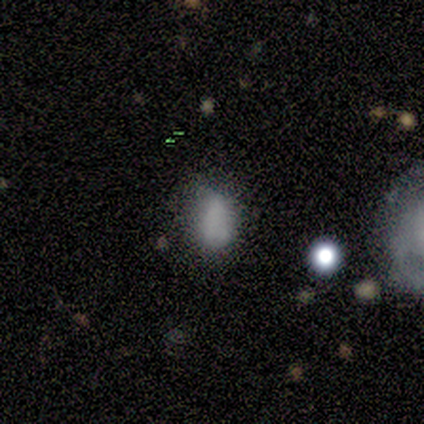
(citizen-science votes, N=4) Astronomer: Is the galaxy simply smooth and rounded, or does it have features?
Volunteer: smooth — 50%.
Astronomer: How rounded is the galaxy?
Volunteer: in between — 100%.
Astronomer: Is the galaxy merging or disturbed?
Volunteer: minor disturbance — 67%.